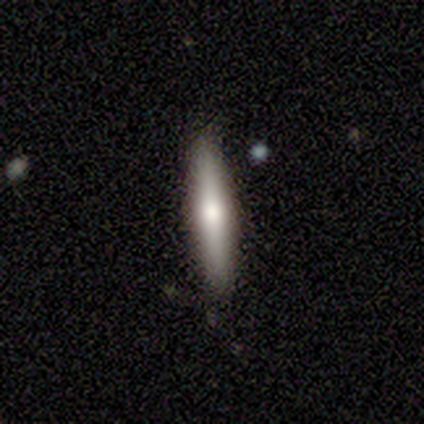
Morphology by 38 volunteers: Q: Smooth or featured?
A: featured or disk (53%); runner-up: smooth (39%)
Q: Edge-on disk?
A: yes (100%)
Q: Edge-on bulge?
A: rounded (80%); runner-up: boxy (10%)
Q: Merging?
A: none (91%); runner-up: minor disturbance (9%)